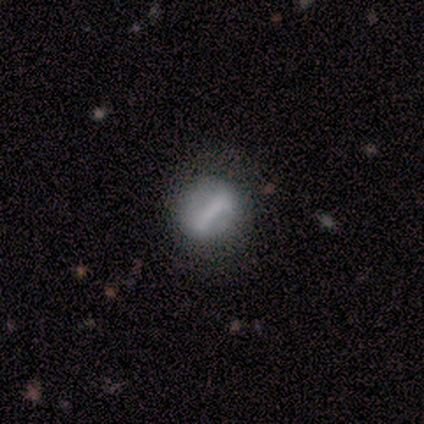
Smooth or featured? smooth (40%, tied with star or artifact)
How rounded? in between (50%, tied with cigar-shaped)
Merging? minor disturbance (100%)